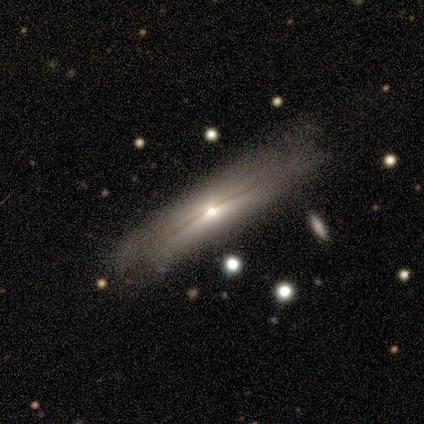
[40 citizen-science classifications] This appears to be a featured or disk galaxy (80%) viewed edge-on (97%) with a rounded central bulge (74%). Merging: none (54%).